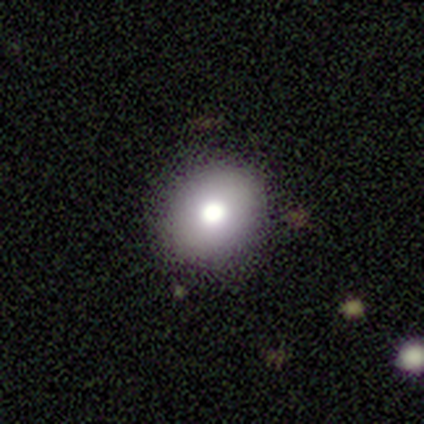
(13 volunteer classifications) Smooth or featured? 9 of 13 (69%) said smooth. How rounded? 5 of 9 (56%) said round. Merging? 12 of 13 (92%) said none.